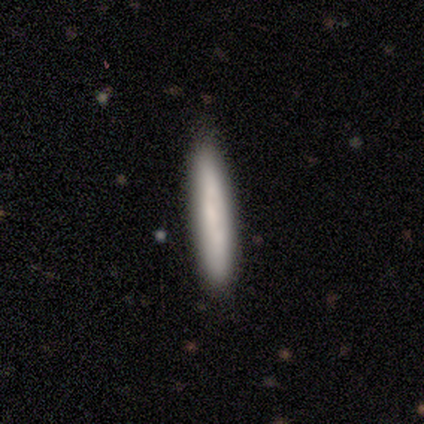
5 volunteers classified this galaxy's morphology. Smooth or featured? 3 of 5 (60%) said smooth. How rounded? 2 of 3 (67%) said cigar-shaped. Merging? 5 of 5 (100%) said none.